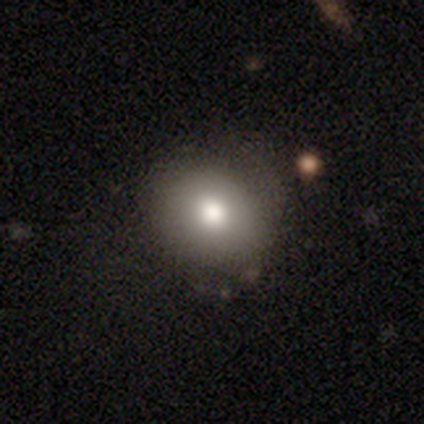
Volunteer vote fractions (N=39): A smooth galaxy with no disk features (82%) that is round (78%).

Vote fractions:
- Smooth or featured? smooth: 82% / featured or disk: 10% / star or artifact: 8%
- How rounded? round: 78% / in between: 22% / cigar-shaped: 0%
- Merging? none: 78% / minor disturbance: 17% / major disturbance: 3% / merger: 3%